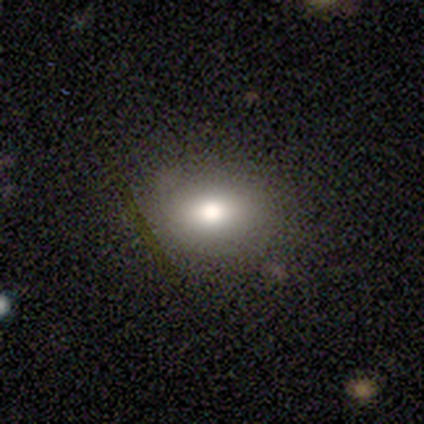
Q: Smooth or featured?
A: smooth (80%); runner-up: star or artifact (20%)
Q: How rounded?
A: in between (100%)
Q: Merging?
A: none (100%)